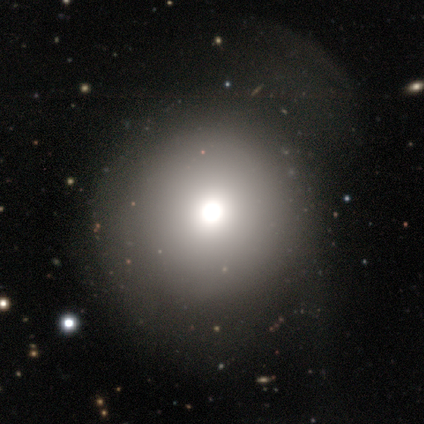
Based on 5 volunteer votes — A smooth galaxy with no disk features (60%) that is round (100%).

Vote fractions:
- Smooth or featured? smooth: 60% / featured or disk: 20% / star or artifact: 20%
- How rounded? round: 100% / in between: 0% / cigar-shaped: 0%
- Merging? major disturbance: 50% / none: 25% / minor disturbance: 25% / merger: 0%